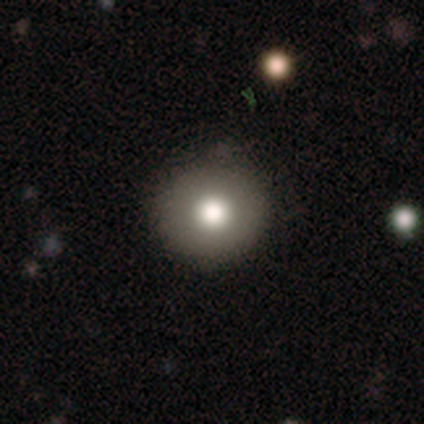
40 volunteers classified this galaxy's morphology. smooth 78%, featured or disk 12%, star or artifact 10%. Down the decision tree: how rounded — round (97%); merging — none (92%).